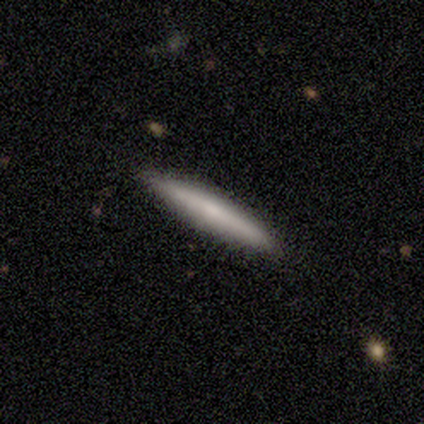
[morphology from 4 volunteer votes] This appears to be a smooth galaxy with no disk features (75%) that is cigar-shaped (100%). Merging: none (100%).